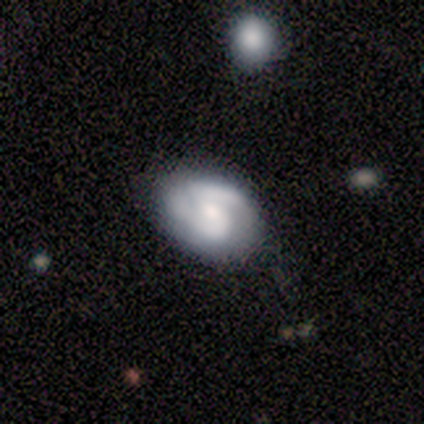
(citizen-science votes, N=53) This is likely a featured or disk galaxy (66%). It is clearly not viewed edge-on (100%). Bar: likely no (63%). Spiral arm pattern: clearly yes (91%). Spiral arm count: clearly 2 (91%). Spiral winding: likely medium (66%). Central bulge: possibly moderate (49%). Merging: likely none (63%).